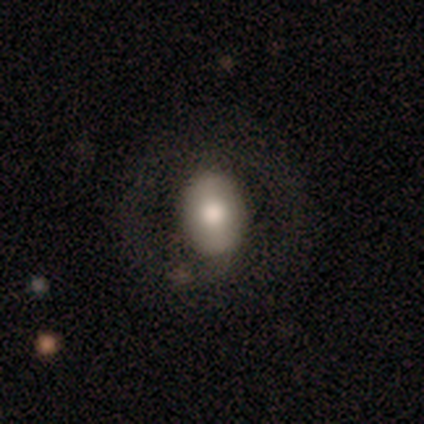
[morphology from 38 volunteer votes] A smooth galaxy with no disk features (68%) that is in between round and cigar-shaped (65%). Merging: none (81%).